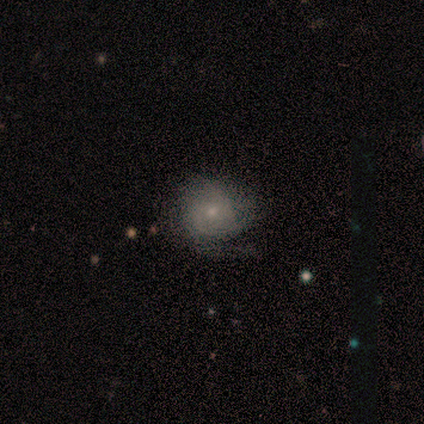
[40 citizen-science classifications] A smooth galaxy with no disk features (52%) that is round (81%). Merging: none (64%).